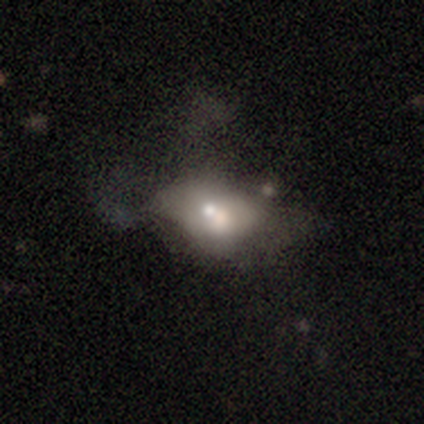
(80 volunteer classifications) This appears to be a smooth galaxy with no disk features (50%) that is in between round and cigar-shaped (82%). Merging: merger (22%).